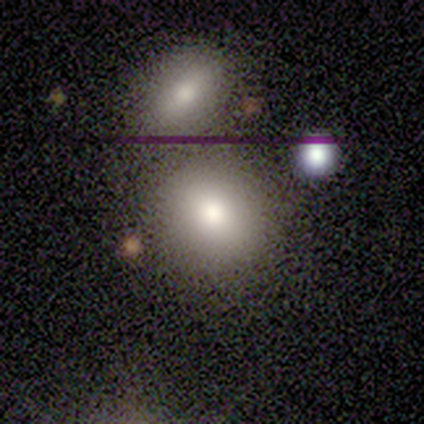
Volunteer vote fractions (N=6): Smooth or featured? smooth (100%)
How rounded? round (100%)
Merging? none (50%, tied with merger)